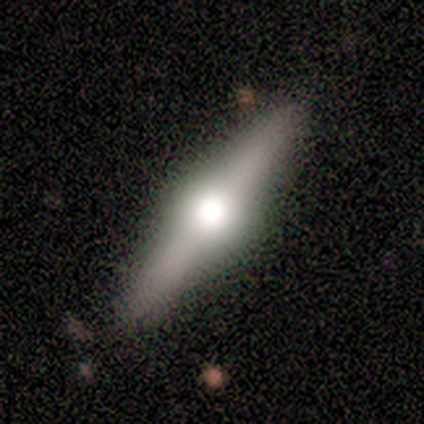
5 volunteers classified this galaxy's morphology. featured or disk 100%, smooth 0%, star or artifact 0%. Down the decision tree: edge-on disk — yes (100%); edge-on bulge — rounded (100%); merging — none (100%).